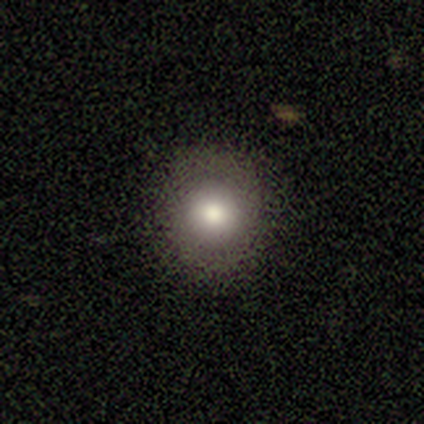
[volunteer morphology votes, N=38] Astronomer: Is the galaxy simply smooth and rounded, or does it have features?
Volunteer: smooth — 92%.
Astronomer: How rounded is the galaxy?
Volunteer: round — 86%.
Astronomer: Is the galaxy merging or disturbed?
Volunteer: none — 92%.